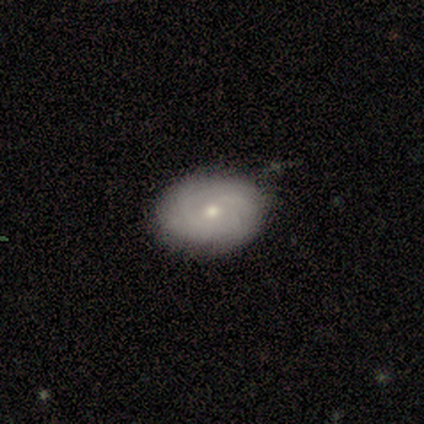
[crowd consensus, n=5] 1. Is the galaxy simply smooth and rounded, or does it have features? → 60% featured or disk, 40% smooth, 0% star or artifact.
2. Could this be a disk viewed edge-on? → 100% no, 0% yes.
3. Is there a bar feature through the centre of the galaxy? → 100% no, 0% strong, 0% weak.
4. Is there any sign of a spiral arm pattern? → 67% yes, 33% no.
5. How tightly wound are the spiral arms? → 50% tight (tied), 50% loose (tied), 0% medium.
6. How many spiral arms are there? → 100% can't tell, 0% 1, 0% 2, 0% 3, 0% 4, 0% more than 4.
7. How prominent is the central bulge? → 67% small, 33% moderate, 0% dominant, 0% large, 0% none.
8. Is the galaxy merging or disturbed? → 80% none, 20% minor disturbance, 0% major disturbance, 0% merger.